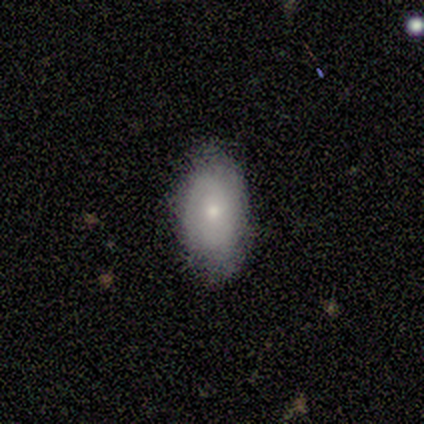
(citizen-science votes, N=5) A smooth galaxy with no disk features (60%) that is in between round and cigar-shaped (67%).

Vote fractions:
- Smooth or featured? smooth: 60% / featured or disk: 40% / star or artifact: 0%
- How rounded? in between: 67% / cigar-shaped: 33% / round: 0%
- Merging? none: 80% / major disturbance: 20% / minor disturbance: 0% / merger: 0%